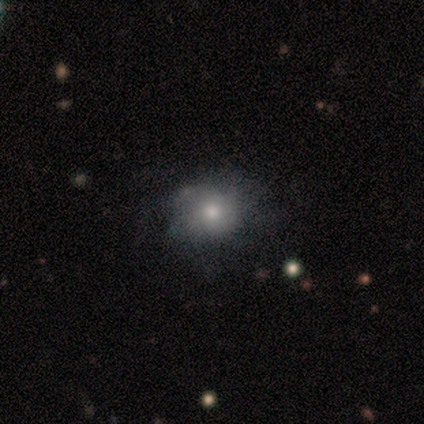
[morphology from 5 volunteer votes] A smooth galaxy with no disk features (80%) that is round (100%). Merging: none (100%).